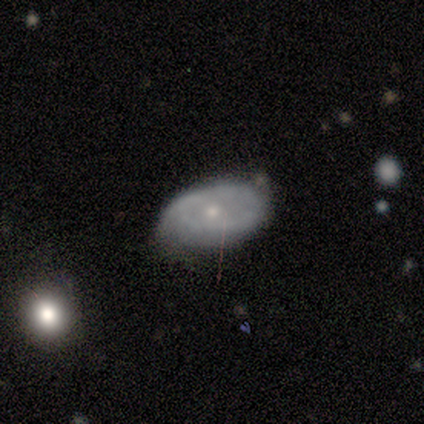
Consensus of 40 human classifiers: Smooth or featured: featured or disk — 60% (smooth — 35%)
Edge-on disk: no — 92% (yes — 8%)
Bar: no — 86% (weak — 9%)
Spiral arms: no — 59% (yes — 41%)
Bulge size: small — 77% (moderate — 23%)
Merging: none — 66% (minor disturbance — 29%)